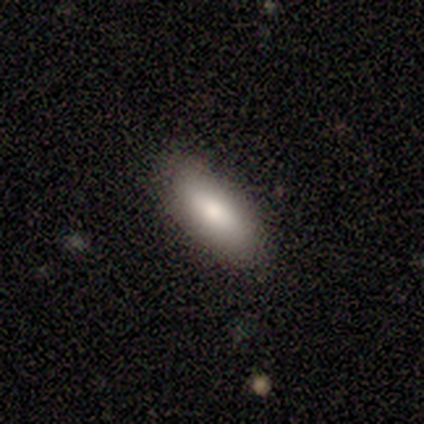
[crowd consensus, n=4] A smooth galaxy with no disk features (100%) that is in between round and cigar-shaped (100%). Merging: none (100%).